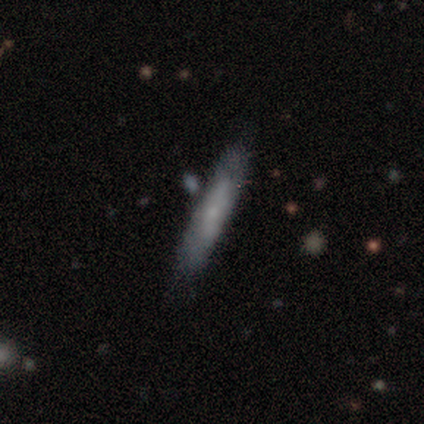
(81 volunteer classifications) Morphology: type=smooth (67%); roundness=cigar-shaped (89%); merging=none (35%).